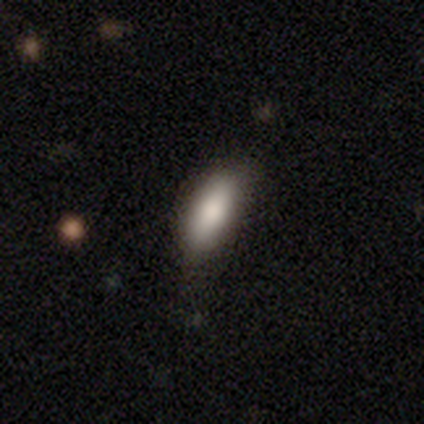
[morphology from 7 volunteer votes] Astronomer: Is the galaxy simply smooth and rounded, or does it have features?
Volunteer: smooth — 86%.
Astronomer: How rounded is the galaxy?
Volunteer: in between — 100%.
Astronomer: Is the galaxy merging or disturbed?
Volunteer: none — 71%.